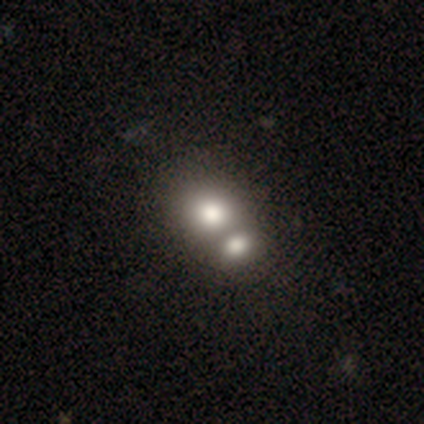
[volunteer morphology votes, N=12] A featured or disk galaxy (67%) with no bar (100%), no spiral arms (100%) and a large central bulge (38%). Merging: merger (92%).